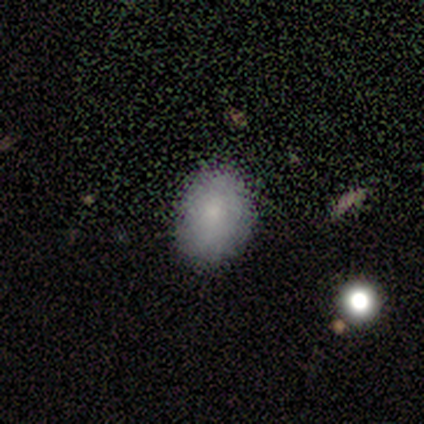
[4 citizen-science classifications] Q: Smooth or featured?
A: smooth (50%); runner-up: featured or disk (25%)
Q: How rounded?
A: in between (100%)
Q: Merging?
A: none (67%); runner-up: minor disturbance (33%)